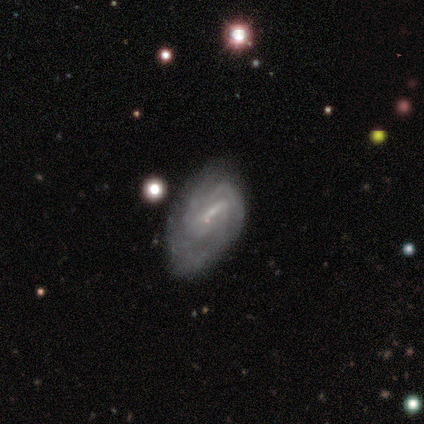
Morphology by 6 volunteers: featured or disk 83%, smooth 17%, star or artifact 0%. Down the decision tree: edge-on disk — no (100%); bar — no (60%); spiral arms — yes (100%); spiral arm count — 3 (40%, tied with can't tell); spiral winding — medium (80%); bulge size — small (100%); merging — minor disturbance (83%).